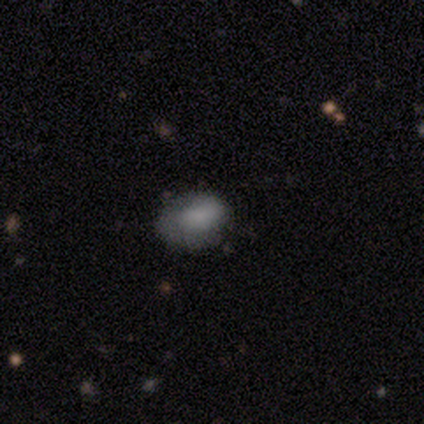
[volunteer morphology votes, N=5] smooth_or_featured: smooth (p=0.60) [alt: featured or disk p=0.20]
how_rounded: in between (p=1.00)
merging: minor disturbance (p=0.75) [alt: none p=0.25]